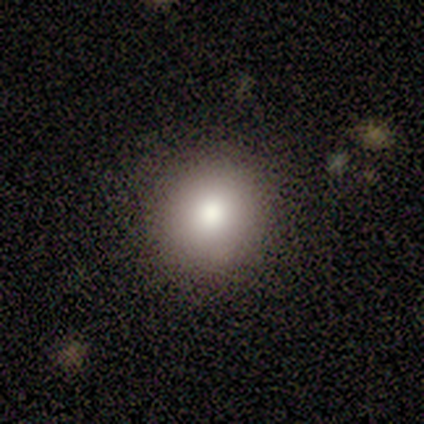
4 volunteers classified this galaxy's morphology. smooth-or-featured: smooth: 100% | featured or disk: 0% | star or artifact: 0%
  how-rounded: round: 75% | in between: 25% | cigar-shaped: 0%
  merging: none: 75% | minor disturbance: 25% | major disturbance: 0% | merger: 0%